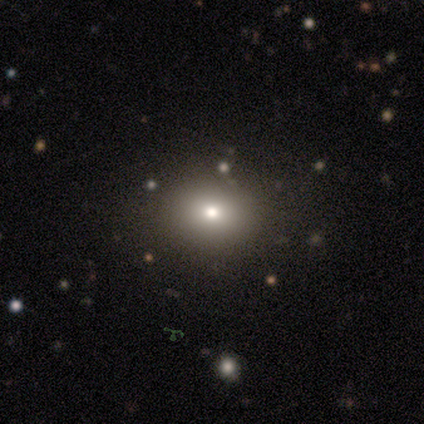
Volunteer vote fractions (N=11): Smooth or featured: smooth — 73% (star or artifact — 18%)
How rounded: round — 88% (in between — 12%)
Merging: none — 100%